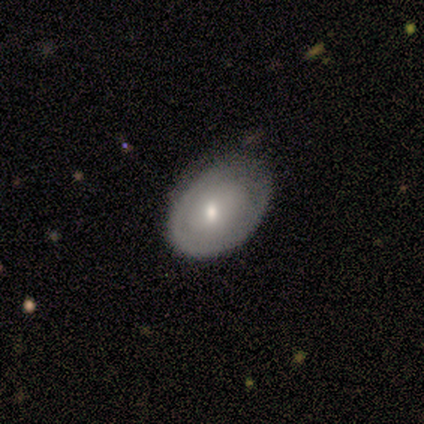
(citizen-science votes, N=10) smooth-or-featured: featured or disk: 60% | smooth: 40% | star or artifact: 0%
  disk-edge-on: no: 100% | yes: 0%
    bar: no: 67% | weak: 33% | strong: 0%
    has-spiral-arms: yes: 50% (tied) | no: 50% (tied)
      spiral-winding: tight: 33% (tied) | medium: 33% (tied) | loose: 33% (tied)
      spiral-arm-count: 1: 33% (tied) | 2: 33% (tied) | can't tell: 33% (tied) | 3: 0% | 4: 0% | more than 4: 0%
    bulge-size: moderate: 50% | small: 33% | large: 17% | dominant: 0% | none: 0%
  merging: minor disturbance: 70% | none: 30% | major disturbance: 0% | merger: 0%